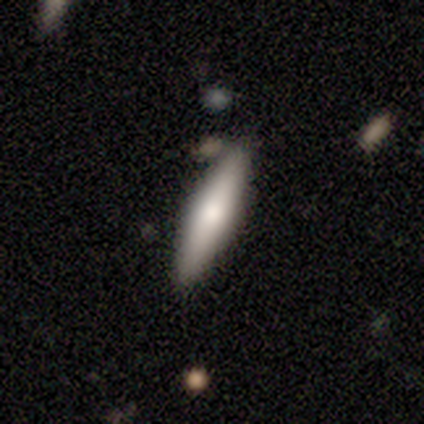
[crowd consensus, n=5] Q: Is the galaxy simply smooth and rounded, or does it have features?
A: smooth — 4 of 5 (80%).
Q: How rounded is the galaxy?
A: cigar-shaped — 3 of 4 (75%).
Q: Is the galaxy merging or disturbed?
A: none — 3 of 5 (60%).